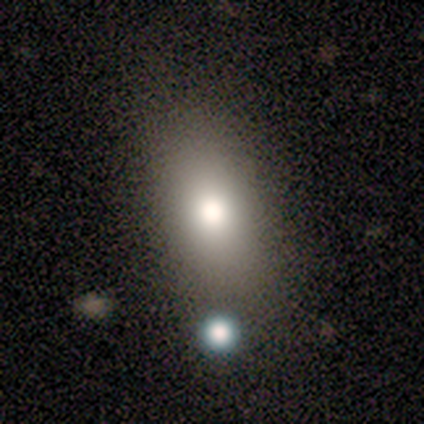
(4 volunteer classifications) smooth-or-featured: smooth: 100% | featured or disk: 0% | star or artifact: 0%
  how-rounded: in between: 100% | round: 0% | cigar-shaped: 0%
  merging: none: 100% | minor disturbance: 0% | major disturbance: 0% | merger: 0%